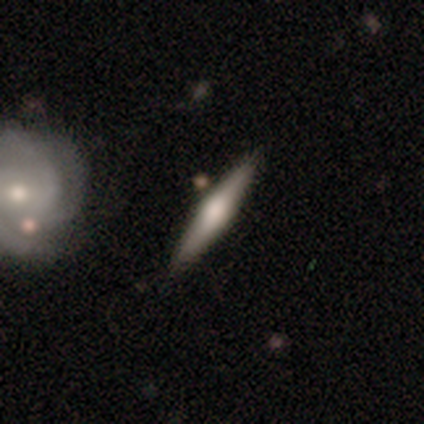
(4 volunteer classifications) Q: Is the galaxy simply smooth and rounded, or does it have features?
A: featured or disk — 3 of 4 (75%).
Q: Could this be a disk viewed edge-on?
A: yes — 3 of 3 (100%).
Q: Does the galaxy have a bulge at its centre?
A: rounded — 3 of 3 (100%).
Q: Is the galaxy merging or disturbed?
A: none — 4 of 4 (100%).